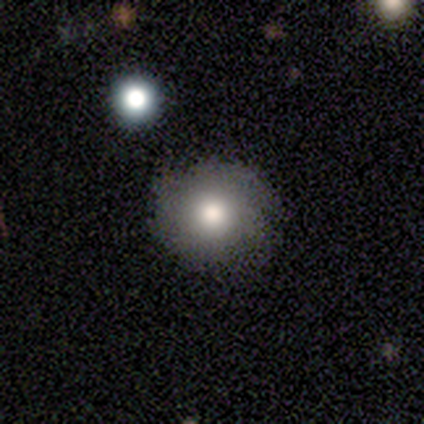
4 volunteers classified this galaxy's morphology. A smooth galaxy with no disk features (75%) that is round (100%).

Vote fractions:
- Smooth or featured? smooth: 75% / featured or disk: 25% / star or artifact: 0%
- How rounded? round: 100% / in between: 0% / cigar-shaped: 0%
- Merging? none: 75% / minor disturbance: 25% / major disturbance: 0% / merger: 0%